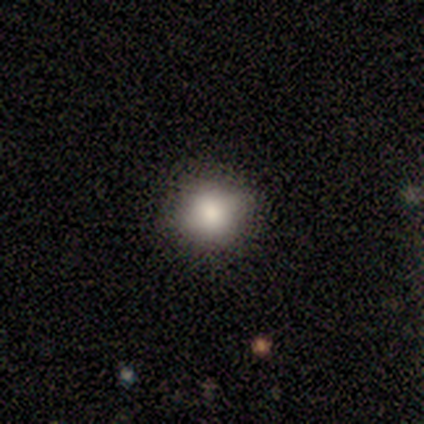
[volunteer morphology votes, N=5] Overall: smooth (80%). How rounded: round (100%). Merging: none (100%).